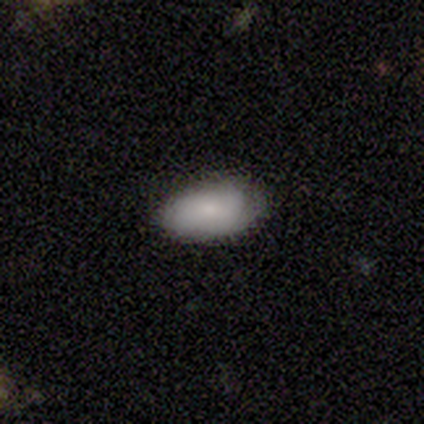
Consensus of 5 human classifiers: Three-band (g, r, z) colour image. It shows a smooth galaxy with no disk features (80%) that is in between round and cigar-shaped (100%). Merging: minor disturbance (60%).